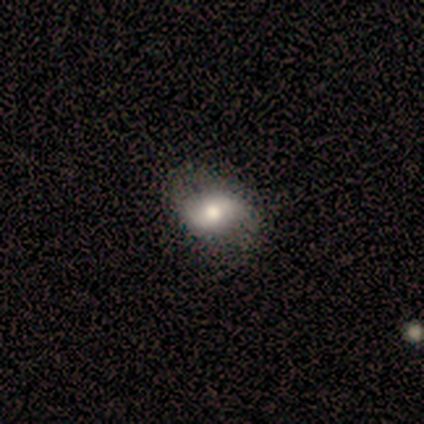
smooth_or_featured: featured or disk (p=0.56) [alt: smooth p=0.31]
disk_edge_on: no (p=1.00)
bar: no (p=0.55) [alt: weak p=0.27]
has_spiral_arms: yes (p=0.73) [alt: no p=0.27]
spiral_winding: loose (p=0.75) [alt: medium p=0.19]
spiral_arm_count: 2 (p=0.94) [alt: 1 p=0.06]
bulge_size: moderate (p=0.64) [alt: large p=0.27]
merging: none (p=0.53) [alt: minor disturbance p=0.15]